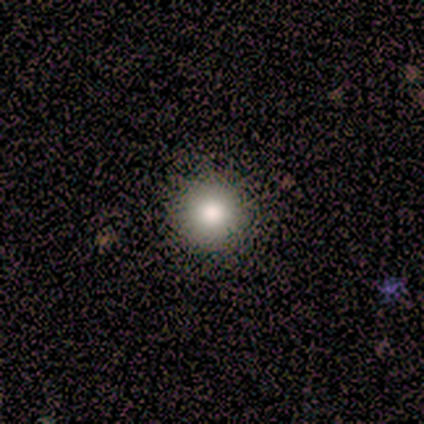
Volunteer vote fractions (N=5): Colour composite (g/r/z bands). It shows a smooth galaxy with no disk features (80%) that is round (100%). Merging: none (100%).